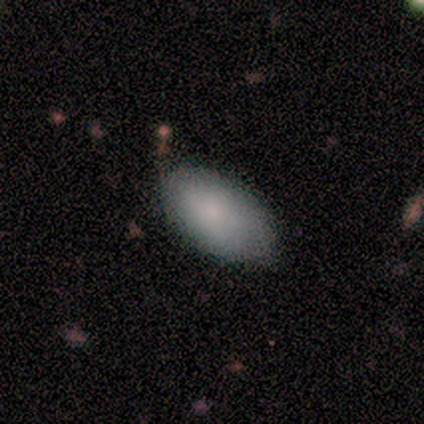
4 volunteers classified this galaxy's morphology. Smooth or featured? smooth (100%)
How rounded? in between (75%)
Merging? none (100%)